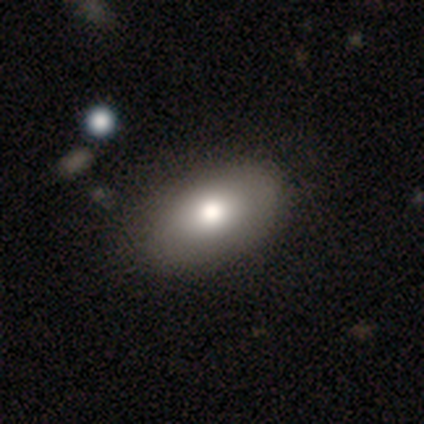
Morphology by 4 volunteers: Overall: smooth (75%). How rounded: in between (67%; round 33%). Merging: none (100%).